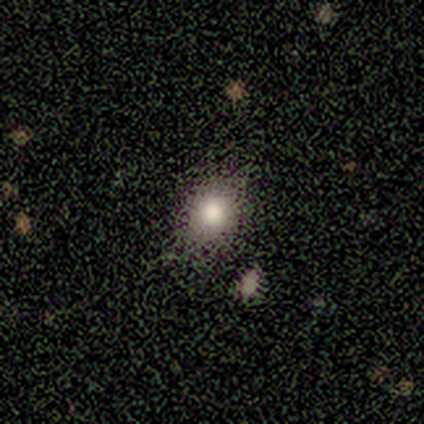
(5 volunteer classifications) Morphology: type=smooth (60%); roundness=round (100%); merging=none (80%).